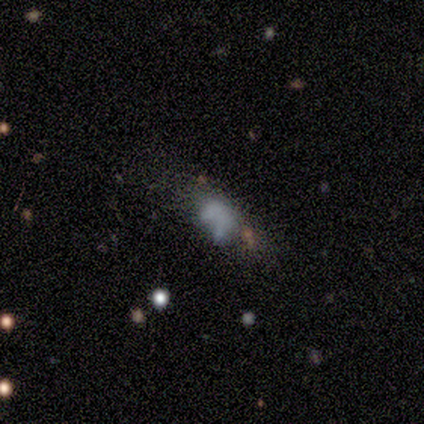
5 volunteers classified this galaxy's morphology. Smooth or featured? smooth (80%)
How rounded? in between (100%)
Merging? minor disturbance (60%)